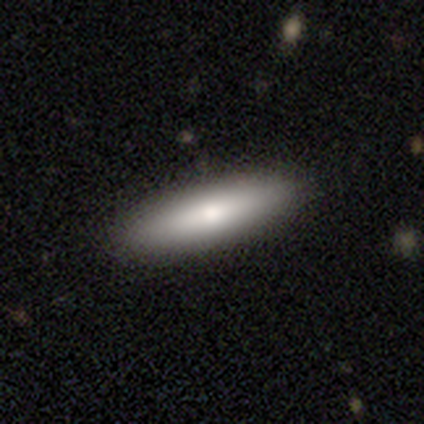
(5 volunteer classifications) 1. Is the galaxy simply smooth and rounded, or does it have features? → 80% smooth, 20% star or artifact, 0% featured or disk.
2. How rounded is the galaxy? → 75% cigar-shaped, 25% in between, 0% round.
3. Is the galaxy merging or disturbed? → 100% none, 0% minor disturbance, 0% major disturbance, 0% merger.